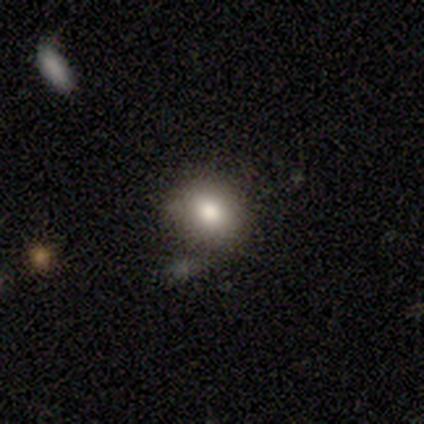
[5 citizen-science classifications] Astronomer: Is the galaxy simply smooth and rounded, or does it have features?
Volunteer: smooth — 80%.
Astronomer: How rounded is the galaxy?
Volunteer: round — 75%.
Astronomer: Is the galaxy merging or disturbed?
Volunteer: none — 100%.